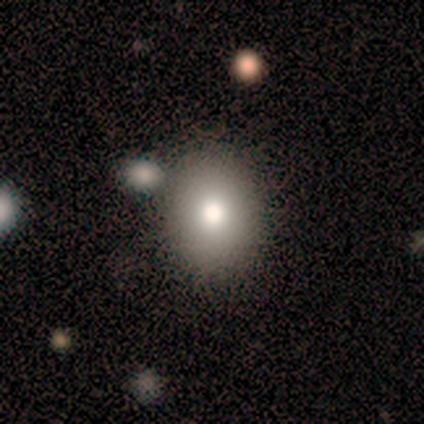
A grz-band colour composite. It shows a smooth galaxy with no disk features (75%) that is in between round and cigar-shaped (67%). Merging: none (67%).